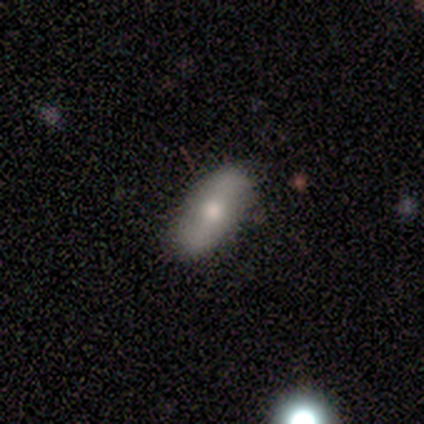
Overall: featured or disk (69%; smooth 31%). Edge-on disk: no (100%). Bar: no (56%; strong 22%). Spiral arms: yes (78%). Spiral arm count: 2 (100%). Spiral winding: medium (57%; tight 29%). Bulge size: moderate (67%; small 33%). Merging: none (69%).